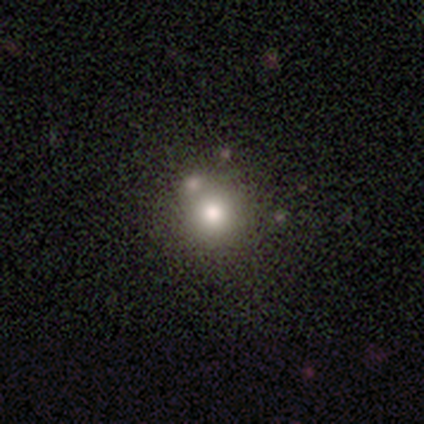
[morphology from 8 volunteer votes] Smooth or featured? 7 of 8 (88%) said smooth. How rounded? 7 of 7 (100%) said round. Merging? 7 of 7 (100%) said none.